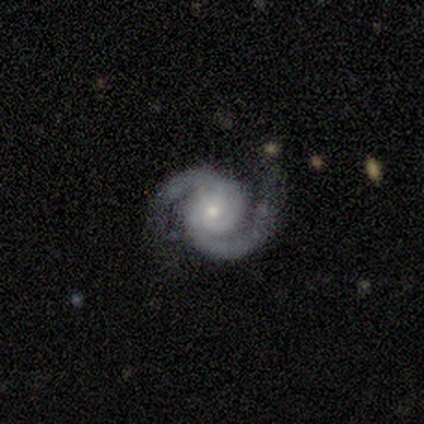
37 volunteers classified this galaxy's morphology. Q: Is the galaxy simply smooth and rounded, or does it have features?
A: featured or disk — 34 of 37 (92%).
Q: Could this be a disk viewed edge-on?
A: no — 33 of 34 (97%).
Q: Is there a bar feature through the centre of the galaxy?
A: no — 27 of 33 (82%).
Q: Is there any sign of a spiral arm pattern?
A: yes — 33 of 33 (100%).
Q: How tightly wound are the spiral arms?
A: tight — 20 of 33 (61%).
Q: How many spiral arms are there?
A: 2 — 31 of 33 (94%).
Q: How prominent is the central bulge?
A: small — 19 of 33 (58%).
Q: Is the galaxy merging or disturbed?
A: none — 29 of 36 (81%).